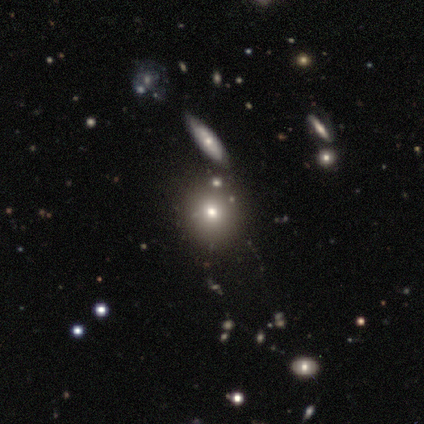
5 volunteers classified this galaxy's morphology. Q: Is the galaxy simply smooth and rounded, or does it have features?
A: smooth — 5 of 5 (100%).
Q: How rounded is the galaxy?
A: round — 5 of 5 (100%).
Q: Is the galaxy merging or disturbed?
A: none — 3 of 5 (60%).